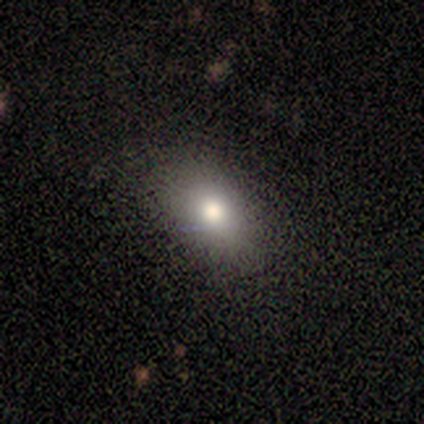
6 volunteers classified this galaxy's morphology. smooth_or_featured: star or artifact (p=0.50) [alt: smooth p=0.33]